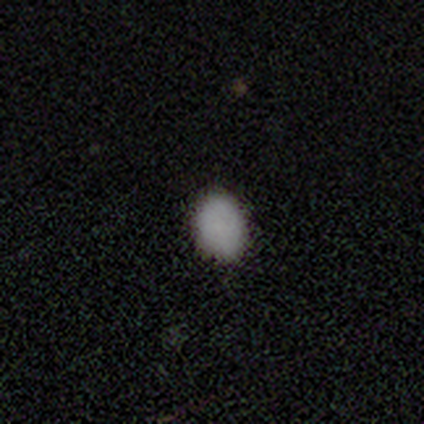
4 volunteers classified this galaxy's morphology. A smooth galaxy with no disk features (100%) that is in between round and cigar-shaped (75%). Merging: none (75%).